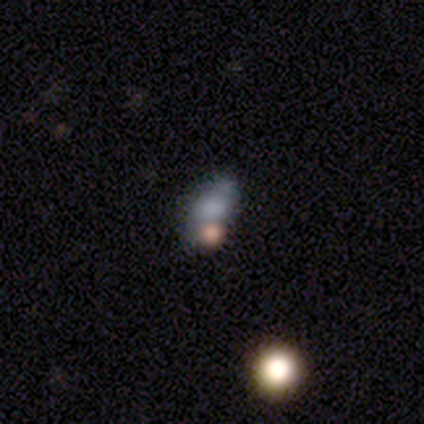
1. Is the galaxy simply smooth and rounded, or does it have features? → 80% smooth, 20% featured or disk, 0% star or artifact.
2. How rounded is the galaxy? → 50% round (tied), 50% in between (tied), 0% cigar-shaped.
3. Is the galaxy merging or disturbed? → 40% major disturbance (tied), 40% merger (tied), 20% minor disturbance, 0% none.